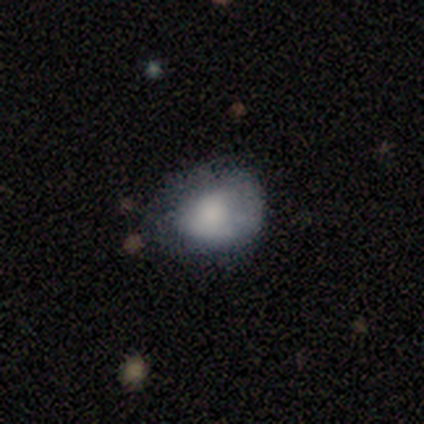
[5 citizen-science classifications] Q: Smooth or featured?
A: smooth (80%); runner-up: featured or disk (20%)
Q: How rounded?
A: in between (75%); runner-up: round (25%)
Q: Merging?
A: minor disturbance (80%); runner-up: none (20%)